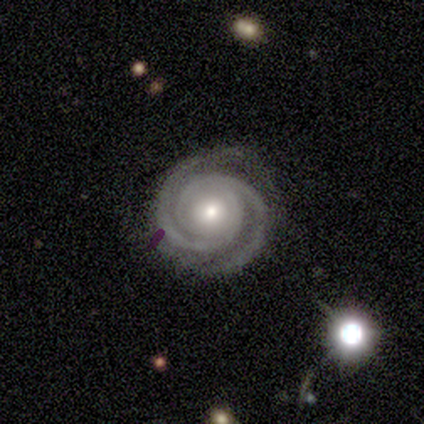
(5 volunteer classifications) Morphology: type=featured or disk (100%); edge-on=no (100%); bar=no (80%); spiral arms=yes (100%); winding=tight (80%); arm count=2 (80%); bulge=moderate (100%); merging=none (100%).